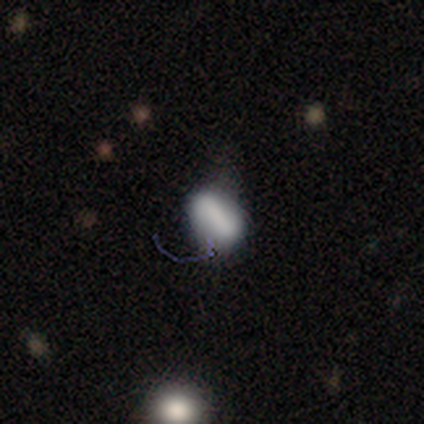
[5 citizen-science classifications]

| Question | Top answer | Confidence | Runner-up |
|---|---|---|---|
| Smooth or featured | smooth | 80% | featured or disk (20%) |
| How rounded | in between | 100% | — |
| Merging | none | 40% | tied: minor disturbance (40%) |